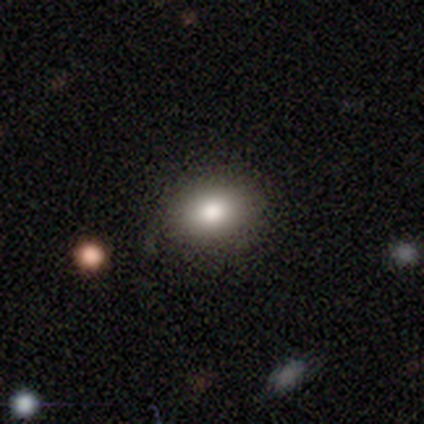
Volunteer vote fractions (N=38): Smooth or featured? 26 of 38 (68%) said smooth. How rounded? 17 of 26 (65%) said in between. Merging? 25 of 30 (83%) said none.